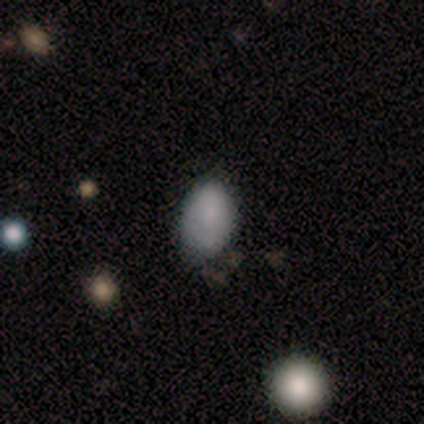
This is clearly a smooth galaxy (80%). How rounded: clearly in between (100%). Merging: likely minor disturbance (60%).